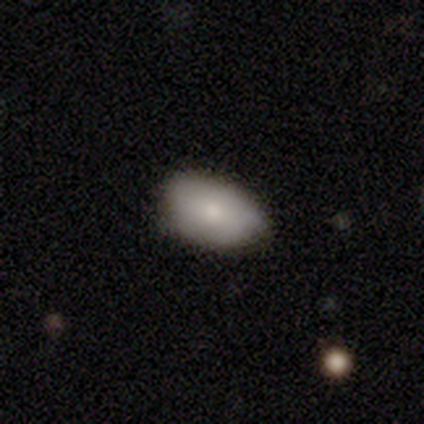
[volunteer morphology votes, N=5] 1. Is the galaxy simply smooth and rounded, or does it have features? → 80% smooth, 20% featured or disk, 0% star or artifact.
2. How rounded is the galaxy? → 100% in between, 0% round, 0% cigar-shaped.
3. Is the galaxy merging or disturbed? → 100% none, 0% minor disturbance, 0% major disturbance, 0% merger.